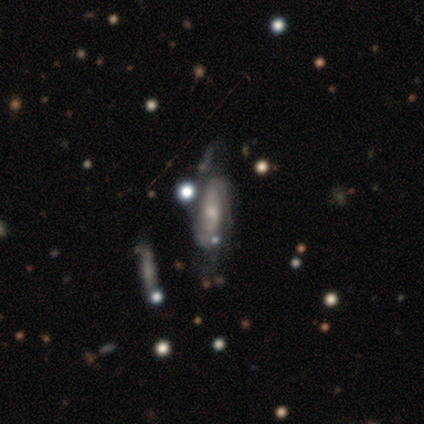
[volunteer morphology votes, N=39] Smooth or featured: featured or disk — 74% (smooth — 21%)
Edge-on disk: no — 90% (yes — 10%)
Bar: no — 65% (weak — 23%)
Spiral arms: yes — 77% (no — 23%)
Spiral winding: tight — 40% (tied with medium — 40%)
Spiral arm count: 2 — 75% (can't tell — 20%)
Bulge size: small — 73% (moderate — 19%)
Merging: merger — 35% (none — 22%)